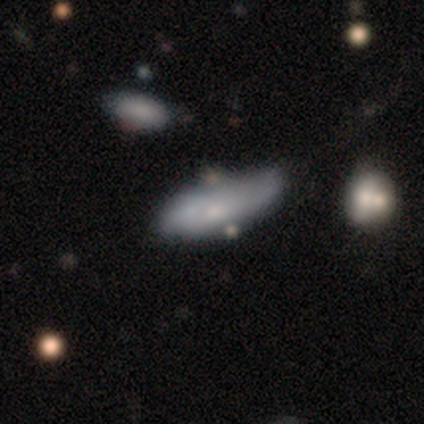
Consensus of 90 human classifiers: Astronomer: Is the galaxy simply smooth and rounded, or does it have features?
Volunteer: smooth — 59% (runner-up: featured or disk, 37%).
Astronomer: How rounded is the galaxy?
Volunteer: in between — 58% (runner-up: cigar-shaped, 42%).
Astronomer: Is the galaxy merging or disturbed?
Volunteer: none — 38% (runner-up: minor disturbance, 33%).